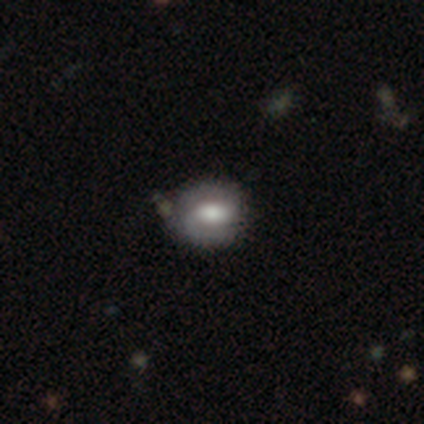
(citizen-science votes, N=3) Smooth or featured? 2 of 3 (67%) said featured or disk. Edge-on disk? 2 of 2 (100%) said no. Bar? 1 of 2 (50%, tied with no) said weak. Spiral arms? 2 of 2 (100%) said yes. Spiral winding? 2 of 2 (100%) said tight. Spiral arm count? 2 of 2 (100%) said 1. Bulge size? 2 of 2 (100%) said large. Merging? 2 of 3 (67%) said none.